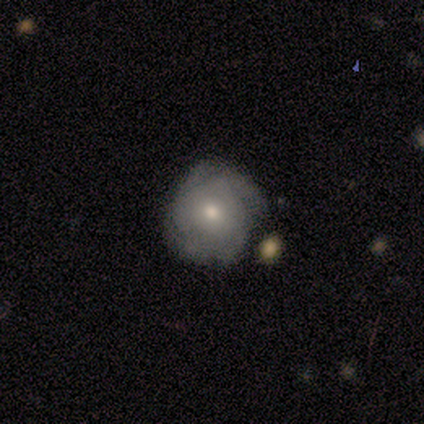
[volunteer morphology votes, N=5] This is clearly a smooth galaxy (100%). How rounded: clearly round (100%). Merging: likely minor disturbance (60%).